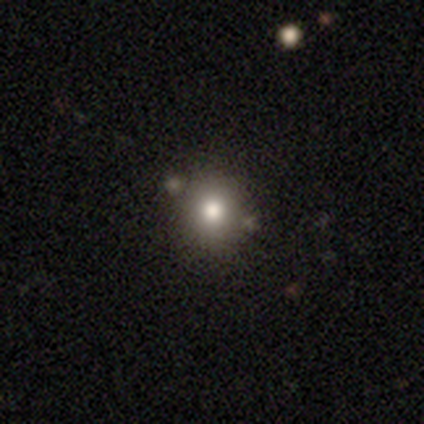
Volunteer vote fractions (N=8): Volunteers were most divided on "merging": none: 88%, merger: 12%, minor disturbance: 0%, major disturbance: 0%. More confident: smooth or featured — smooth (100%); how rounded — round (100%).